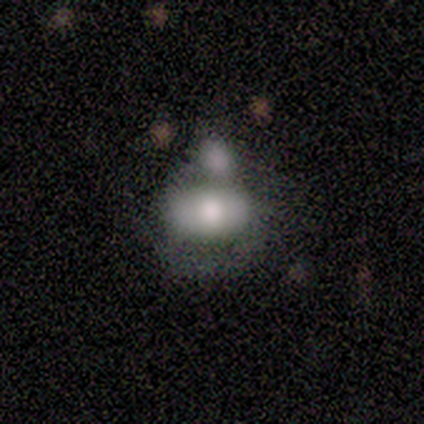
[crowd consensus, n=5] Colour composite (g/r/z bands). It shows a smooth galaxy with no disk features (80%) that is in between round and cigar-shaped (100%). Merging: none (60%).